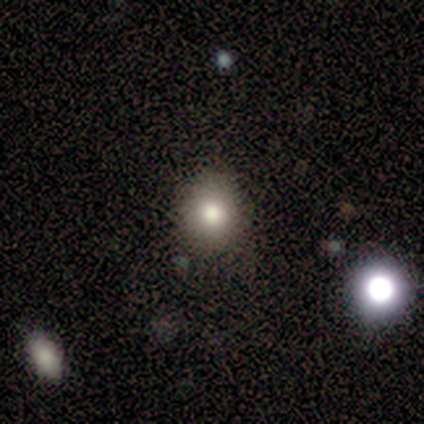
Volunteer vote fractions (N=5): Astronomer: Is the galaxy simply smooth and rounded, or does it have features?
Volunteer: smooth — 40%, tied with star or artifact at 40%.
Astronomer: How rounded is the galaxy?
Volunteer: round — 100%.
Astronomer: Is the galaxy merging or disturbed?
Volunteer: none — 67%.